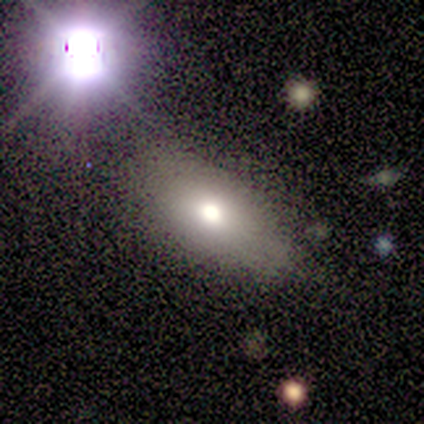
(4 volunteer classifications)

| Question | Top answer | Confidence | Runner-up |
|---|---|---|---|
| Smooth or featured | featured or disk | 50% | smooth (25%) |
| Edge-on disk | no | 100% | — |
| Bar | weak | 50% | tied: no (50%) |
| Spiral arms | no | 100% | — |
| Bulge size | moderate | 50% | tied: none (50%) |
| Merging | none | 100% | — |